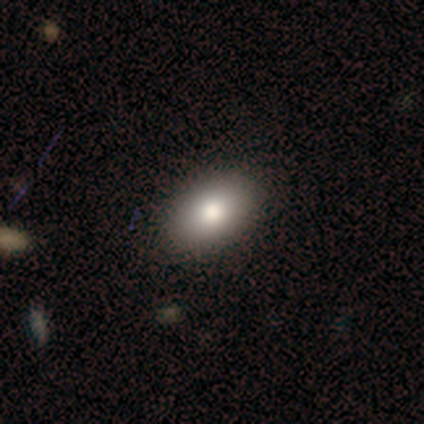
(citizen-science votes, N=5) Volunteers were most divided on "merging": none: 75%, minor disturbance: 25%, major disturbance: 0%, merger: 0%. More confident: how rounded — in between (100%); smooth or featured — smooth (80%).